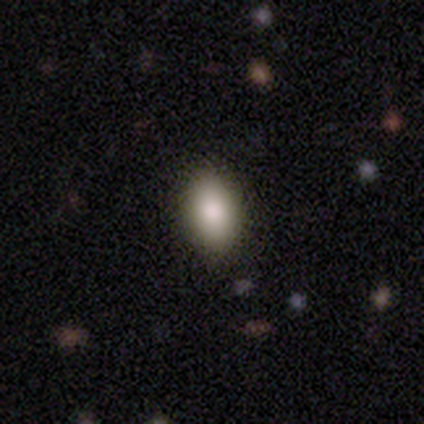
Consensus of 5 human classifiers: smooth_or_featured: featured or disk (p=0.60) [alt: smooth p=0.40]
disk_edge_on: no (p=1.00)
bar: no (p=1.00)
has_spiral_arms: no (p=1.00)
bulge_size: large (p=0.67) [alt: moderate p=0.33]
merging: none (p=1.00)